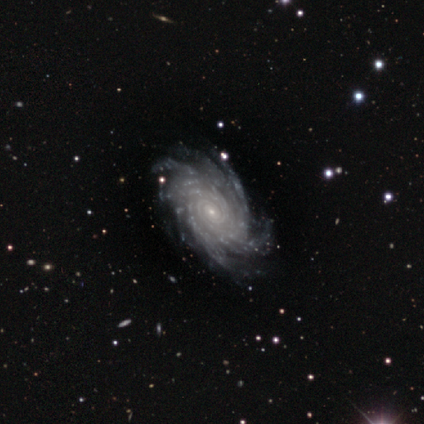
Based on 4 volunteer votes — Morphology: type=featured or disk (100%); edge-on=no (100%); bar=no (100%); spiral arms=yes (100%); winding=tight (100%); arm count=more than 4 (75%); bulge=small (100%); merging=none (75%).